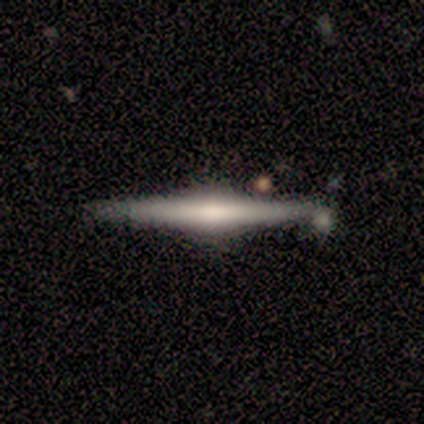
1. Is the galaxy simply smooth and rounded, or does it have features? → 75% featured or disk, 25% smooth, 0% star or artifact.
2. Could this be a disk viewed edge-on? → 100% yes, 0% no.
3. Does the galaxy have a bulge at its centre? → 67% rounded, 33% boxy, 0% none.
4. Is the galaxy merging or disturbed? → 50% none (tied), 50% minor disturbance (tied), 0% major disturbance, 0% merger.